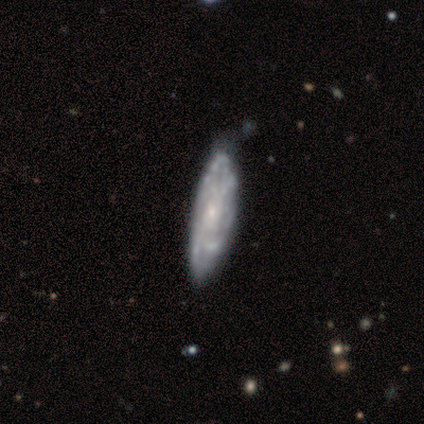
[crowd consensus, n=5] A featured or disk galaxy (80%) viewed edge-on (50%, tied with no) with no central bulge (50%, tied with rounded). Merging: none (100%).